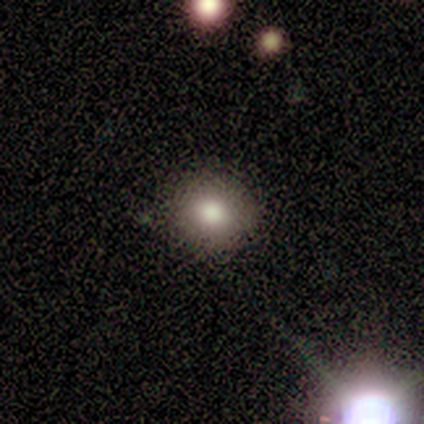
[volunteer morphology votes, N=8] type=smooth (62%); roundness=round (80%); merging=none (80%).